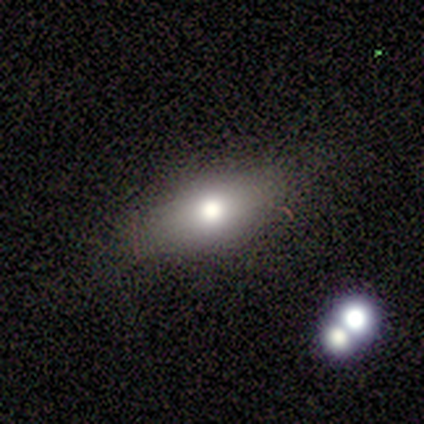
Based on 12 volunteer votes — A smooth galaxy with no disk features (67%) that is in between round and cigar-shaped (100%).

Vote fractions:
- Smooth or featured? smooth: 67% / star or artifact: 25% / featured or disk: 8%
- How rounded? in between: 100% / round: 0% / cigar-shaped: 0%
- Merging? none: 89% / minor disturbance: 11% / major disturbance: 0% / merger: 0%